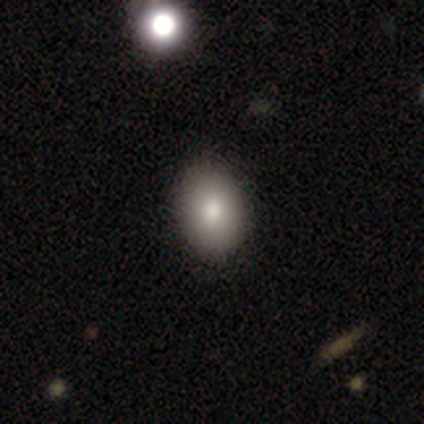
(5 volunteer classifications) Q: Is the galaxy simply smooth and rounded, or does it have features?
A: smooth — 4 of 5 (80%).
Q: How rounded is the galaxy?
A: in between — 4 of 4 (100%).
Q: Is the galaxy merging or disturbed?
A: none — 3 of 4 (75%).